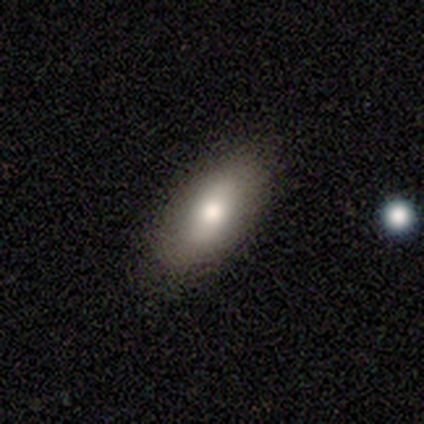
Smooth or featured?
  - smooth: 80% *
  - star or artifact: 20%
  - featured or disk: 0%
How rounded?
  - in between: 100% *
  - round: 0%
  - cigar-shaped: 0%
Merging?
  - none: 75% *
  - minor disturbance: 25%
  - major disturbance: 0%
  - merger: 0%